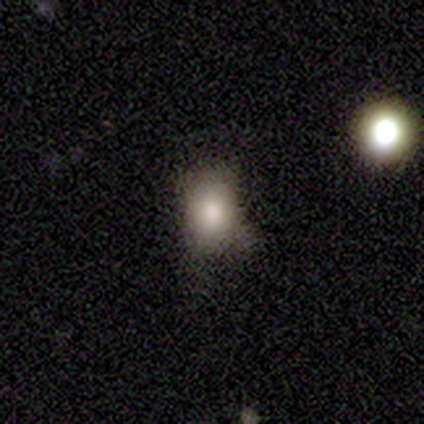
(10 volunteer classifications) This is clearly a smooth galaxy (90%). How rounded: possibly round (56%). Merging: likely none (67%).